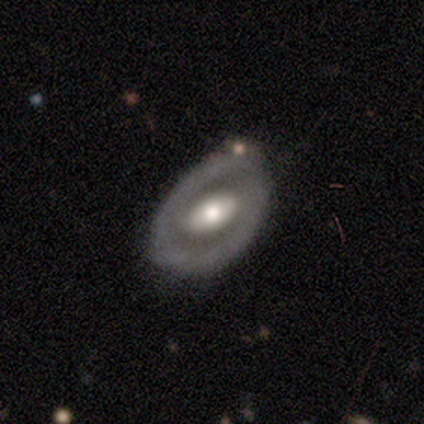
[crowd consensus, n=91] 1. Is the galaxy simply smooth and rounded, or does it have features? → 64% featured or disk, 33% smooth, 3% star or artifact.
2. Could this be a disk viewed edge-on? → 90% no, 10% yes.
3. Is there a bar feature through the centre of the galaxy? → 44% no, 33% weak, 23% strong.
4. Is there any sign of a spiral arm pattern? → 71% no, 29% yes.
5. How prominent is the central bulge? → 65% moderate, 25% large, 6% small, 2% dominant, 2% none.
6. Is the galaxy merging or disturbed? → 65% none, 28% minor disturbance, 5% merger, 2% major disturbance.